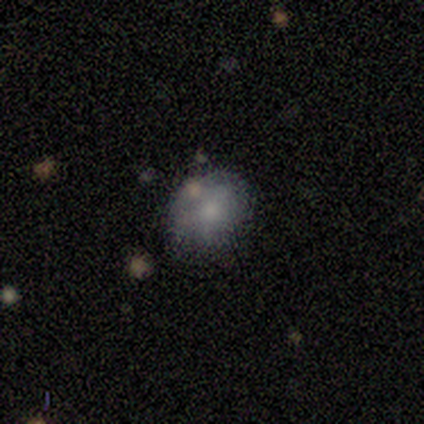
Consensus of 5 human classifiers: Volunteers were most divided on "spiral winding" (2-way tie): tight: 50%, loose: 50%, medium: 0%; "spiral arm count" (2-way tie): 2: 50%, can't tell: 50%, 1: 0%, 3: 0%, 4: 0%, more than 4: 0%. More confident: edge-on disk — no (100%); bar — no (100%); spiral arms — yes (67%); bulge size — none (67%); smooth or featured — featured or disk (60%); merging — none (60%).